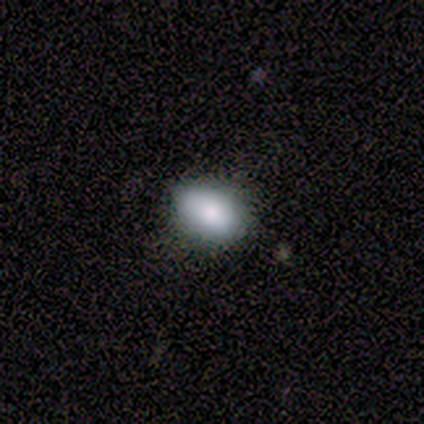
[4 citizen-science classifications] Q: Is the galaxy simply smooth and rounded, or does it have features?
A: smooth — 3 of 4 (75%).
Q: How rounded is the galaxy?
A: in between — 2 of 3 (67%).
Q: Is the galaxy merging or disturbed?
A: none — 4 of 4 (100%).